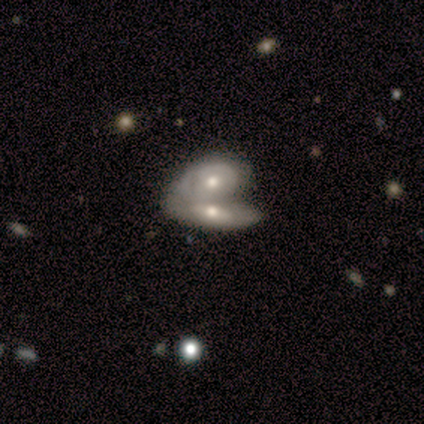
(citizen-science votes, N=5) Smooth or featured: featured or disk — 80% (smooth — 20%)
Edge-on disk: no — 75% (yes — 25%)
Bar: no — 67% (weak — 33%)
Spiral arms: no — 100%
Bulge size: moderate — 100%
Merging: merger — 80% (minor disturbance — 20%)